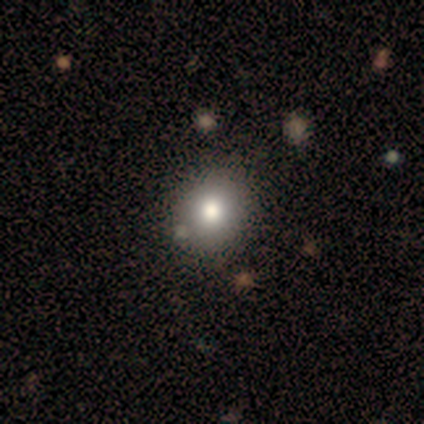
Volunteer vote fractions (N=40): This appears to be a smooth galaxy with no disk features (85%) that is round (85%). Merging: none (61%).